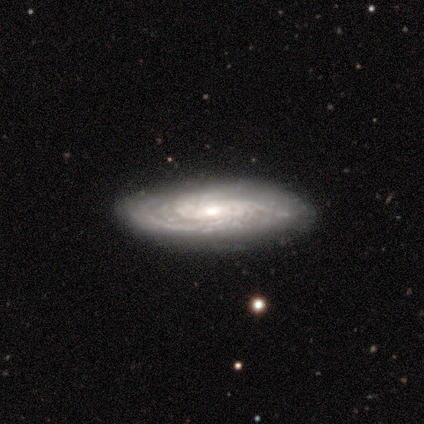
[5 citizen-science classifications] smooth_or_featured: featured or disk (p=0.80) [alt: smooth p=0.20]
disk_edge_on: no (p=1.00)
bar: weak (p=0.50) [tied with: no p=0.50]
has_spiral_arms: yes (p=1.00)
spiral_winding: tight (p=0.75) [alt: medium p=0.25]
spiral_arm_count: can't tell (p=0.50) [alt: 2 p=0.25]
bulge_size: moderate (p=0.50) [tied with: small p=0.50]
merging: none (p=1.00)